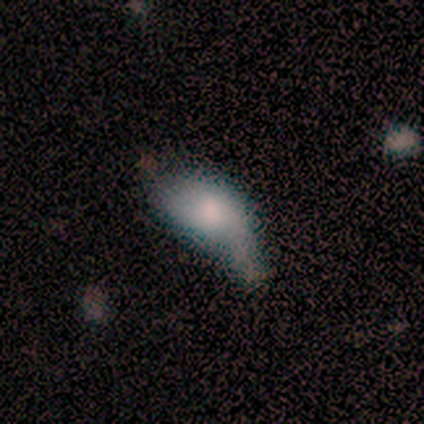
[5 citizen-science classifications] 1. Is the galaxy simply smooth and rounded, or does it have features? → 80% featured or disk, 20% smooth, 0% star or artifact.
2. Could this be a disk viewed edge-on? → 100% no, 0% yes.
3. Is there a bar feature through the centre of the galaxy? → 100% no, 0% strong, 0% weak.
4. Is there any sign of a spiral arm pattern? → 75% no, 25% yes.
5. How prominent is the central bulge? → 50% moderate, 25% large, 25% small, 0% dominant, 0% none.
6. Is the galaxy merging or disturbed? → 60% minor disturbance, 40% major disturbance, 0% none, 0% merger.